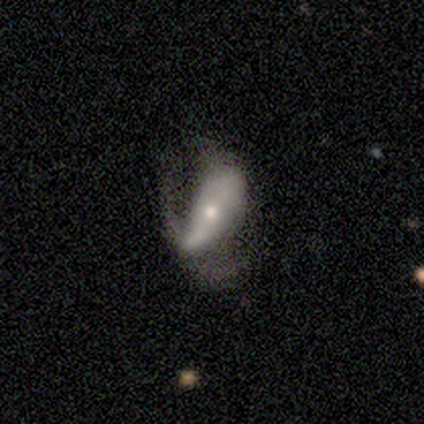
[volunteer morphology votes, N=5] This is likely a smooth galaxy (60%). How rounded: likely in between (67%). Merging: likely minor disturbance (60%).